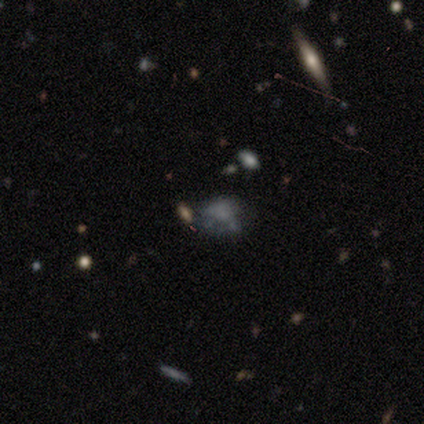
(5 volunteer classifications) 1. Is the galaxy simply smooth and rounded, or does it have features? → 80% smooth, 20% featured or disk, 0% star or artifact.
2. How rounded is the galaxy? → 75% in between, 25% round, 0% cigar-shaped.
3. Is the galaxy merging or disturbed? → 40% none (tied), 40% minor disturbance (tied), 20% merger, 0% major disturbance.